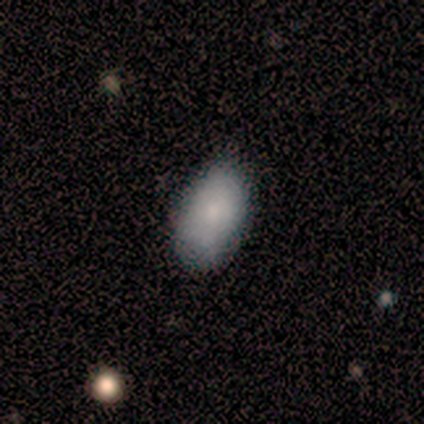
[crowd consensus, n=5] Smooth or featured?
  - smooth: 80% *
  - featured or disk: 20%
  - star or artifact: 0%
How rounded?
  - in between: 100% *
  - round: 0%
  - cigar-shaped: 0%
Merging?
  - none: 60% *
  - minor disturbance: 20%
  - major disturbance: 20%
  - merger: 0%